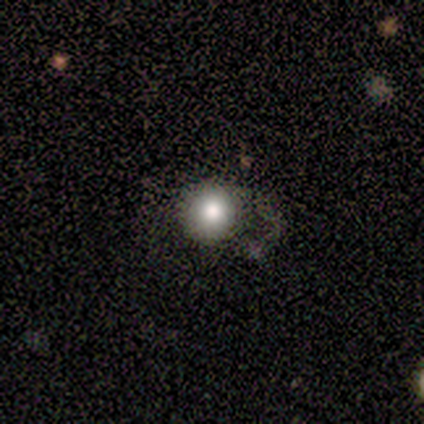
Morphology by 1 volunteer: Smooth or featured?
  - smooth: 100% *
  - featured or disk: 0%
  - star or artifact: 0%
How rounded?
  - round: 100% *
  - in between: 0%
  - cigar-shaped: 0%
Merging?
  - none: 100% *
  - minor disturbance: 0%
  - major disturbance: 0%
  - merger: 0%